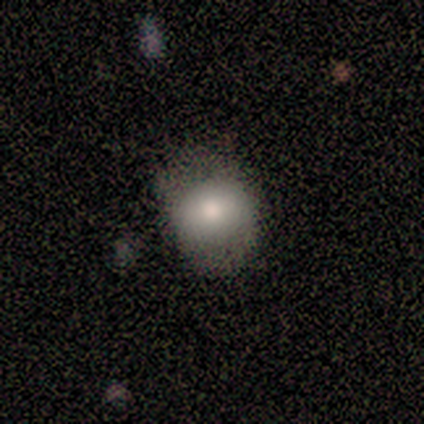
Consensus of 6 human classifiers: A smooth galaxy with no disk features (50%) that is in between round and cigar-shaped (100%).

Vote fractions:
- Smooth or featured? smooth: 50% / featured or disk: 33% / star or artifact: 17%
- How rounded? in between: 100% / round: 0% / cigar-shaped: 0%
- Merging? minor disturbance: 80% / none: 20% / major disturbance: 0% / merger: 0%